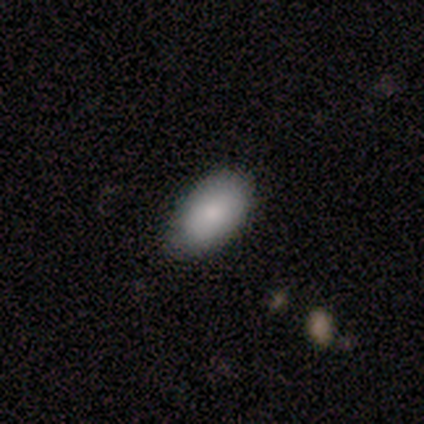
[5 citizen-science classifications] smooth_or_featured: smooth (p=0.80) [alt: featured or disk p=0.20]
how_rounded: in between (p=1.00)
merging: none (p=1.00)